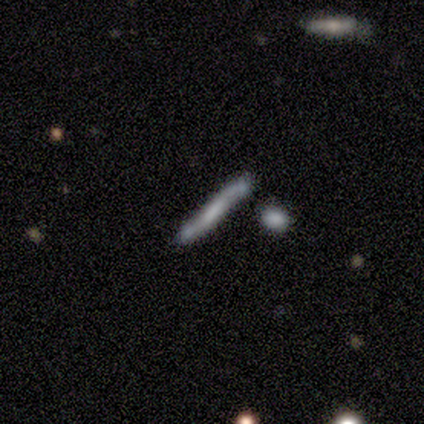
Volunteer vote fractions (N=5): Morphology: type=featured or disk (60%); edge-on=yes (100%); edge-on bulge=boxy (33%, tied with none and rounded); merging=none (60%).